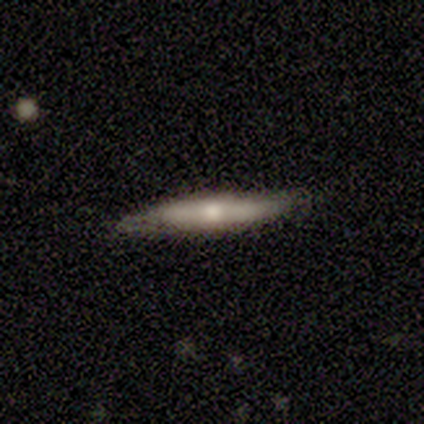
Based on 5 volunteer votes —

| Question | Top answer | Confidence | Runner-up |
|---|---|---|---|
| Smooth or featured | smooth | 80% | featured or disk (20%) |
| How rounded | cigar-shaped | 75% | in between (25%) |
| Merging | none | 80% | minor disturbance (20%) |